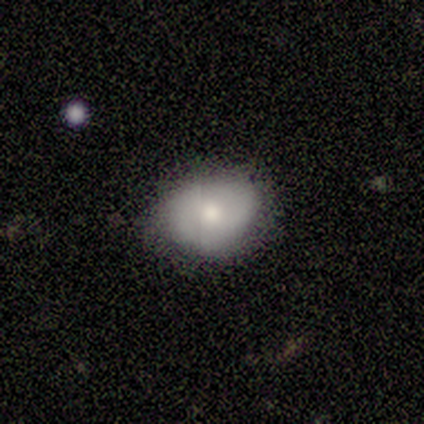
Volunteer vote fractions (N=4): smooth 75%, featured or disk 25%, star or artifact 0%. Down the decision tree: how rounded — in between (67%); merging — none (75%).